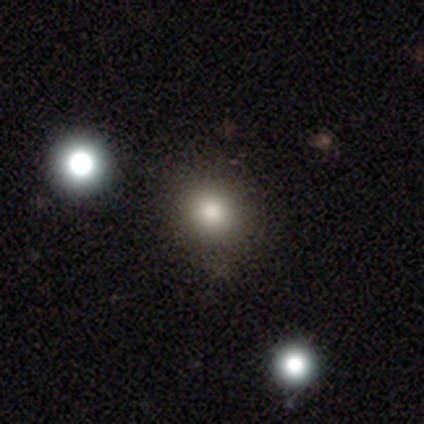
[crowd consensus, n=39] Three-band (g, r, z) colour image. It shows a smooth galaxy with no disk features (67%) that is round (85%). Merging: none (87%).